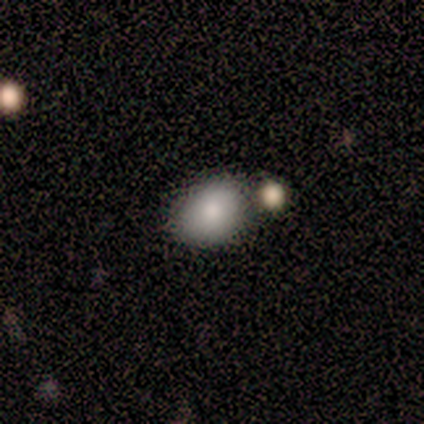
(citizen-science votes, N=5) smooth 100%, featured or disk 0%, star or artifact 0%. Down the decision tree: how rounded — in between (60%); merging — none (60%).